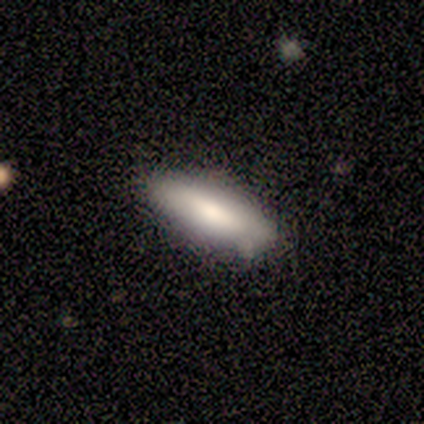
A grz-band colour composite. It shows a smooth galaxy with no disk features (70%) that is in between round and cigar-shaped (57%). Merging: none (100%).